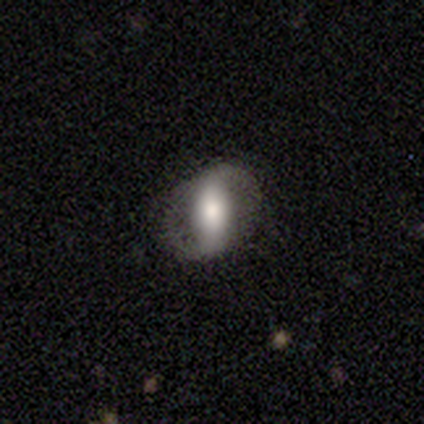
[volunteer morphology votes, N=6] A smooth galaxy with no disk features (50%, tied with featured or disk) that is round (67%). Merging: none (83%).